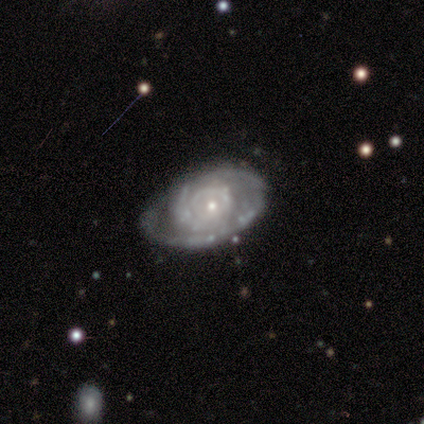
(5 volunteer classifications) A featured or disk galaxy (100%) with no bar (100%), tight (80%) spiral arms (100%) and a small central bulge (100%).

Vote fractions:
- Smooth or featured? featured or disk: 100% / smooth: 0% / star or artifact: 0%
- Edge-on disk? no: 100% / yes: 0%
- Bar? no: 100% / strong: 0% / weak: 0%
- Spiral arms? yes: 100% / no: 0%
- Spiral winding? tight: 80% / medium: 20% / loose: 0%
- Spiral arm count? can't tell: 80% / 1: 20% / 2: 0% / 3: 0% / 4: 0% / more than 4: 0%
- Bulge size? small: 100% / dominant: 0% / large: 0% / moderate: 0% / none: 0%
- Merging? minor disturbance: 60% / none: 40% / major disturbance: 0% / merger: 0%